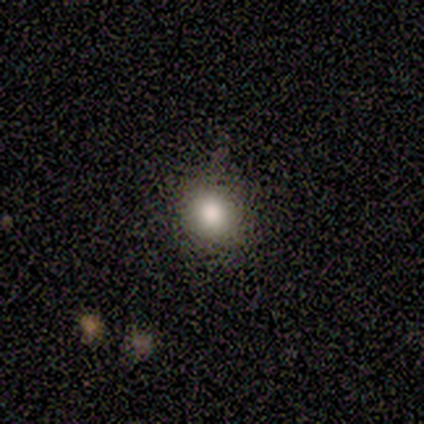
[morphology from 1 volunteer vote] Smooth or featured? smooth (100%)
How rounded? round (100%)
Merging? none (100%)